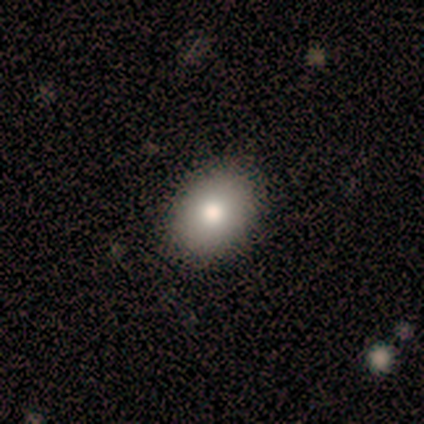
Smooth or featured?
  - smooth: 57% *
  - star or artifact: 29%
  - featured or disk: 14%
How rounded?
  - in between: 100% *
  - round: 0%
  - cigar-shaped: 0%
Merging?
  - none: 80% *
  - minor disturbance: 20%
  - major disturbance: 0%
  - merger: 0%